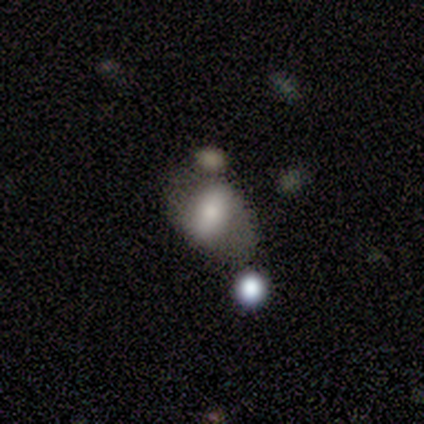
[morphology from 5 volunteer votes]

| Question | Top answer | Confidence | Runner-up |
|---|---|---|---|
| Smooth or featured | smooth | 80% | featured or disk (20%) |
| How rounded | in between | 50% | tied: cigar-shaped (50%) |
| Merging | minor disturbance | 40% | tied: merger (40%) |